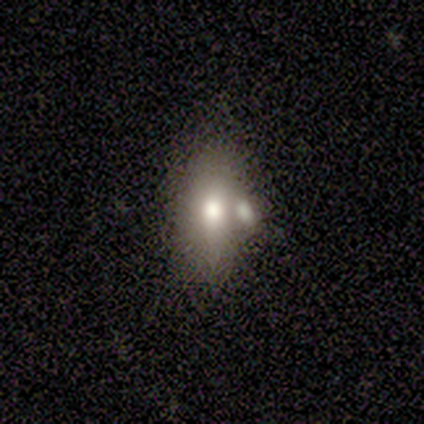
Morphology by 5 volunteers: Smooth or featured?
  - smooth: 100% *
  - featured or disk: 0%
  - star or artifact: 0%
How rounded?
  - in between: 80% *
  - cigar-shaped: 20%
  - round: 0%
Merging?
  - none: 40% * (tied)
  - merger: 40% * (tied)
  - minor disturbance: 20%
  - major disturbance: 0%